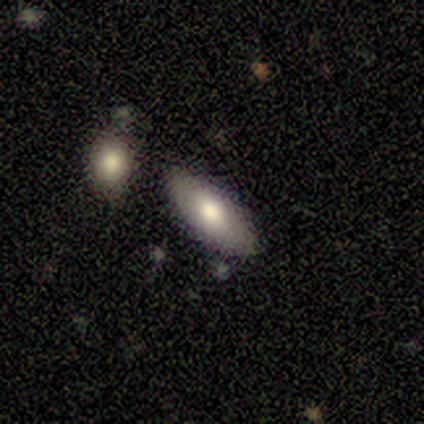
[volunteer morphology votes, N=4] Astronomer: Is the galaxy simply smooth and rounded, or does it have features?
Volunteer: smooth — 100%.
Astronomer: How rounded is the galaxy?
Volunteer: cigar-shaped — 75%.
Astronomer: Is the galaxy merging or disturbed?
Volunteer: none — 50%.